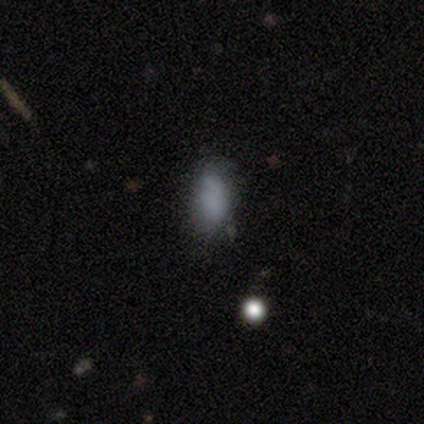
A smooth galaxy with no disk features (100%) that is round (40%, tied with in between).

Vote fractions:
- Smooth or featured? smooth: 100% / featured or disk: 0% / star or artifact: 0%
- How rounded? round: 40% (tied) / in between: 40% (tied) / cigar-shaped: 20%
- Merging? none: 60% / minor disturbance: 20% / major disturbance: 20% / merger: 0%